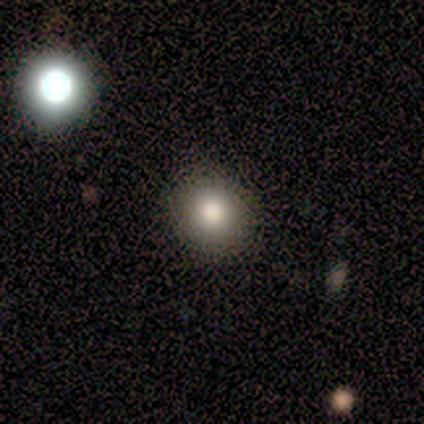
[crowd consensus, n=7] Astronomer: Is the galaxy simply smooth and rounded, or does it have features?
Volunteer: smooth — 100%.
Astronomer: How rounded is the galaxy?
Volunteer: round — 86%.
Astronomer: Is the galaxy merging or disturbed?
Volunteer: none — 100%.